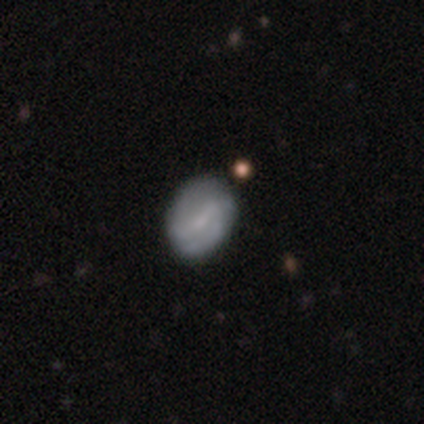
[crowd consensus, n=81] This appears to be a featured or disk galaxy (47%) with a weak bar (45%), 2 (87%) tight (40%) spiral arms (79%) and a small central bulge (55%). Merging: none (44%).